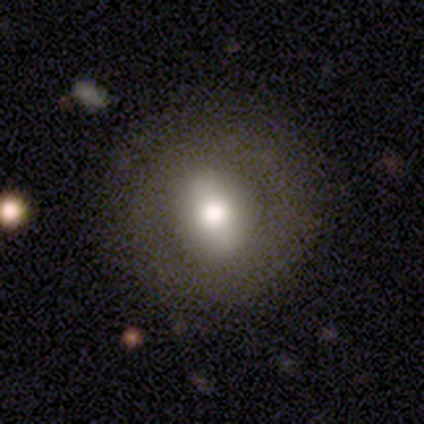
Volunteers were most divided on "smooth or featured": smooth: 69%, featured or disk: 23%, star or artifact: 8%. More confident: how rounded — round (89%); merging — none (83%).